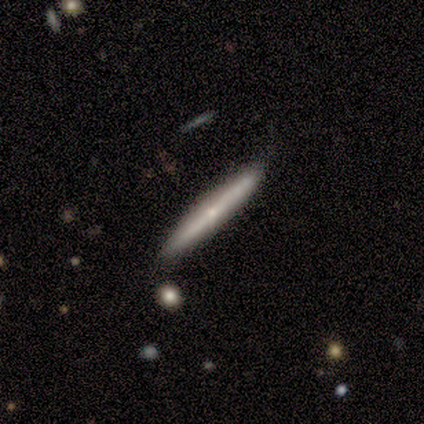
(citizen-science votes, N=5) Volunteers were most divided on "edge-on bulge": rounded: 67%, none: 33%, boxy: 0%. More confident: merging — none (100%); smooth or featured — featured or disk (80%); edge-on disk — yes (75%).